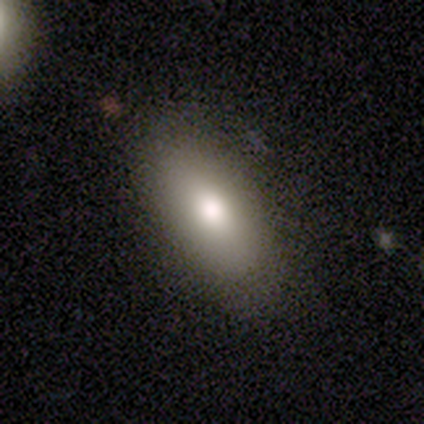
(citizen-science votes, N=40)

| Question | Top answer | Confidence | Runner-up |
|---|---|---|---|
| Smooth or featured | smooth | 78% | featured or disk (20%) |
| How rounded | in between | 97% | round (3%) |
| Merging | none | 82% | minor disturbance (18%) |